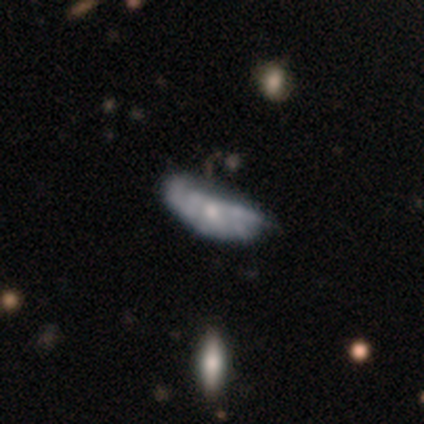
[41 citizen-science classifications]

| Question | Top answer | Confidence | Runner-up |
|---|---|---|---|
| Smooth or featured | featured or disk | 66% | smooth (27%) |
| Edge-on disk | no | 89% | yes (11%) |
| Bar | no | 96% | weak (4%) |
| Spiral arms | no | 62% | yes (38%) |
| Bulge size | small | 71% | moderate (29%) |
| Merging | none | 32% | major disturbance (21%) |